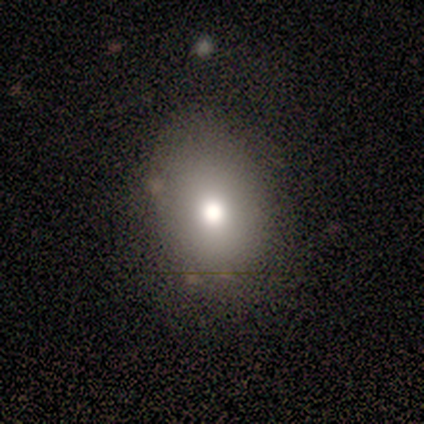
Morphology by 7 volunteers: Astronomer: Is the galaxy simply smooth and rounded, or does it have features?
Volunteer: smooth — 71%.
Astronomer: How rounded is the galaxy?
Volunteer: in between — 60% (runner-up: round, 40%).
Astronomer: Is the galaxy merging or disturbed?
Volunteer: none — 80%.